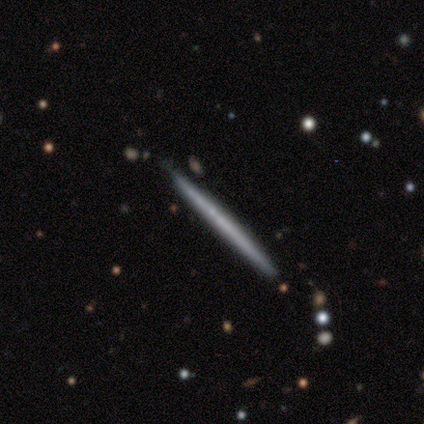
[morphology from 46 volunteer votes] Overall: smooth (61%; featured or disk 35%). How rounded: cigar-shaped (100%). Merging: none (84%).